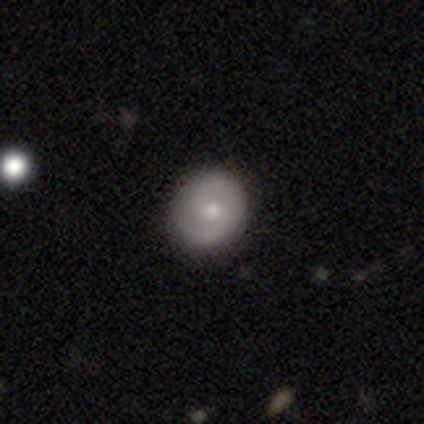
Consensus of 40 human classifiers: smooth_or_featured: featured or disk (p=0.70) [alt: smooth p=0.25]
disk_edge_on: no (p=0.96) [alt: yes p=0.04]
bar: no (p=0.70) [alt: weak p=0.30]
has_spiral_arms: yes (p=0.93) [alt: no p=0.07]
spiral_winding: tight (p=0.44) [tied with: medium p=0.44]
spiral_arm_count: 2 (p=0.84) [alt: 1 p=0.12]
bulge_size: moderate (p=0.59) [alt: small p=0.37]
merging: none (p=0.89) [alt: minor disturbance p=0.11]